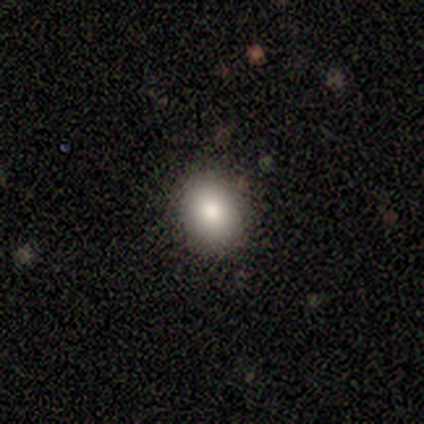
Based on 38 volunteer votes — Smooth or featured: smooth — 87% (featured or disk — 8%)
How rounded: round — 64% (in between — 36%)
Merging: none — 89% (minor disturbance — 8%)